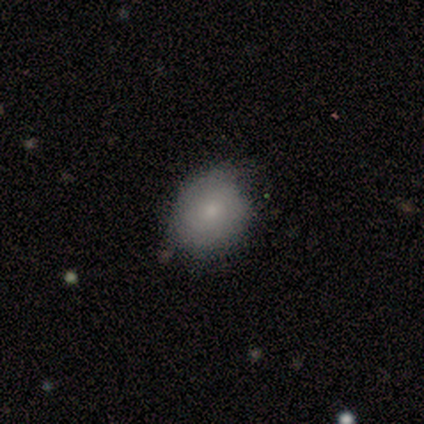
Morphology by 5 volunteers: A smooth galaxy with no disk features (80%) that is round (50%, tied with in between).

Vote fractions:
- Smooth or featured? smooth: 80% / featured or disk: 20% / star or artifact: 0%
- How rounded? round: 50% (tied) / in between: 50% (tied) / cigar-shaped: 0%
- Merging? none: 80% / major disturbance: 20% / minor disturbance: 0% / merger: 0%